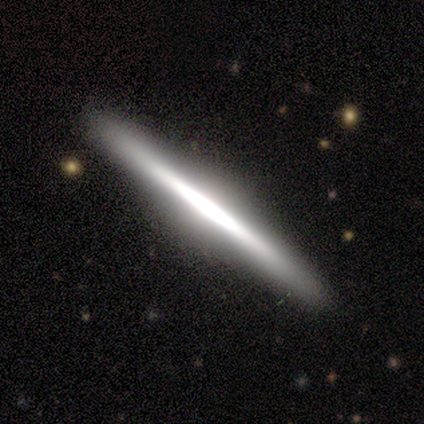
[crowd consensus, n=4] smooth_or_featured: featured or disk (p=0.75) [alt: smooth p=0.25]
disk_edge_on: yes (p=1.00)
edge_on_bulge: boxy (p=0.33) [tied with: none p=0.33, rounded p=0.33]
merging: none (p=1.00)